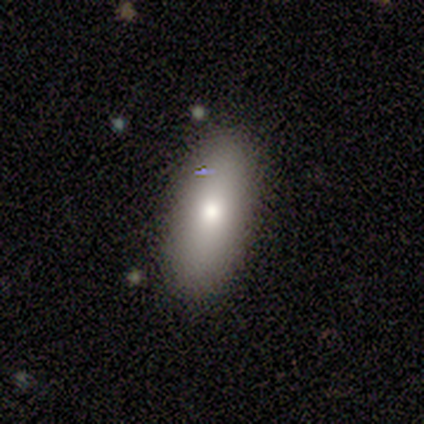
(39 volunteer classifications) Volunteers were most divided on "smooth or featured": smooth: 69%, featured or disk: 21%, star or artifact: 10%. More confident: merging — none (91%); how rounded — in between (81%).